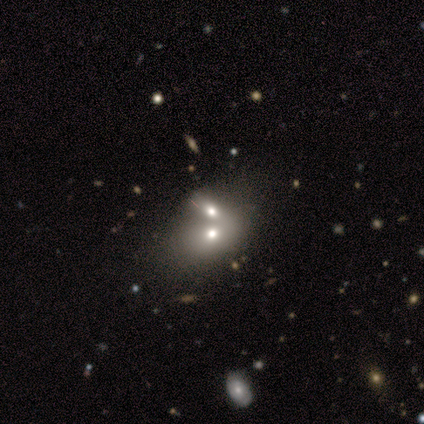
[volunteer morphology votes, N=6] A smooth galaxy with no disk features (33%, tied with featured or disk and star or artifact) that is in between round and cigar-shaped (100%). Merging: merger (75%).